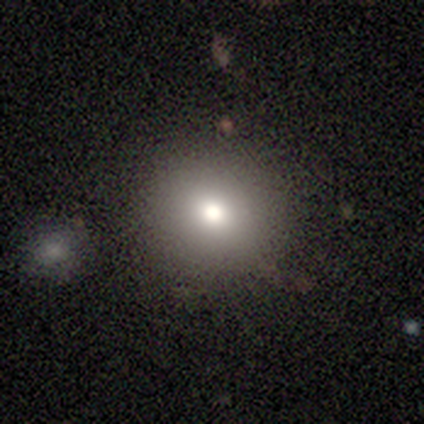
Smooth or featured? 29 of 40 (72%) said smooth. How rounded? 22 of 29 (76%) said round. Merging? 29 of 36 (81%) said none.